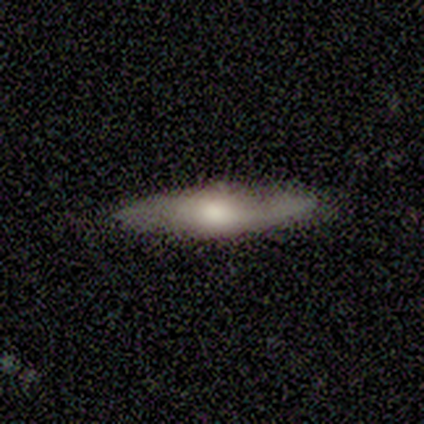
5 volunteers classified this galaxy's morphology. A smooth galaxy with no disk features (80%) that is in between round and cigar-shaped (75%). Merging: none (100%).